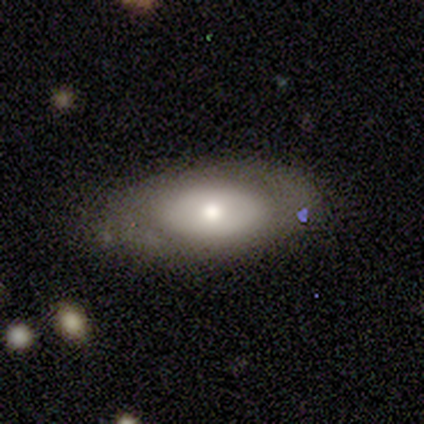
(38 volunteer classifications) Q: Smooth or featured?
A: smooth (66%); runner-up: featured or disk (26%)
Q: How rounded?
A: in between (92%); runner-up: cigar-shaped (8%)
Q: Merging?
A: none (77%); runner-up: minor disturbance (23%)